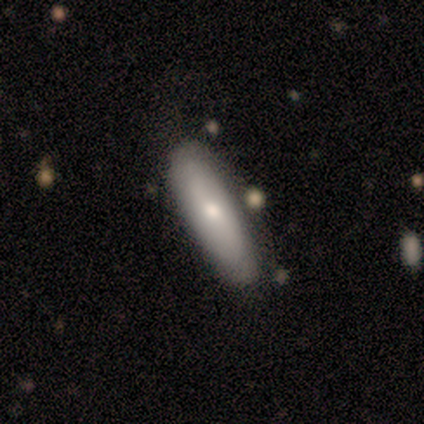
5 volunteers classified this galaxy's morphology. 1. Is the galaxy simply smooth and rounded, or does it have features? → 80% featured or disk, 20% smooth, 0% star or artifact.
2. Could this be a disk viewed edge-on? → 75% no, 25% yes.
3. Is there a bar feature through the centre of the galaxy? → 67% no, 33% strong, 0% weak.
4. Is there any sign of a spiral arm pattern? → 100% no, 0% yes.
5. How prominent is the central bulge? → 33% large (tied), 33% moderate (tied), 33% small (tied), 0% dominant, 0% none.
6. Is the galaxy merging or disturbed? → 100% none, 0% minor disturbance, 0% major disturbance, 0% merger.